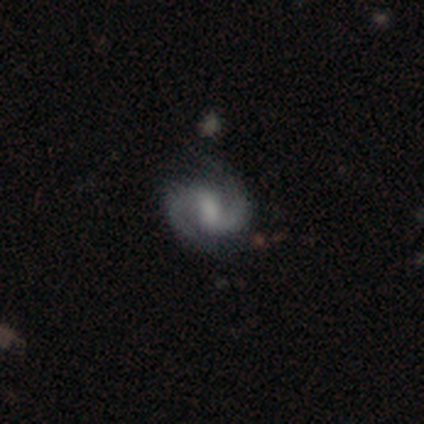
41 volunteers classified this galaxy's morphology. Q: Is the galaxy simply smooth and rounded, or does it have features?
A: featured or disk — 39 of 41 (95%).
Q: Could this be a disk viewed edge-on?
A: no — 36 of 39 (92%).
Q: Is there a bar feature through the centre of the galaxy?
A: weak — 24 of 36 (67%).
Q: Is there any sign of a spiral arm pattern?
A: yes — 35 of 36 (97%).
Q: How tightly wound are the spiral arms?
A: medium — 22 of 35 (63%).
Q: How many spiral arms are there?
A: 2 — 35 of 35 (100%).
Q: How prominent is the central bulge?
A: none — 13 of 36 (36%).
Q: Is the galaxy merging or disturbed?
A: none — 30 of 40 (75%).